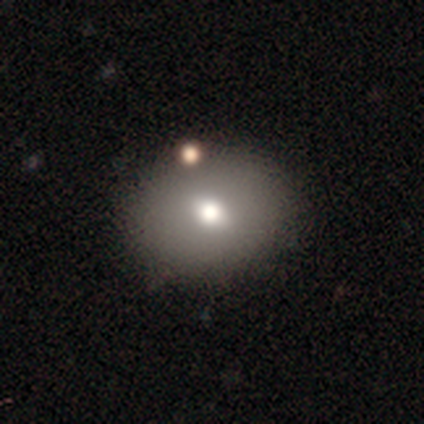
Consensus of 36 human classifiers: A smooth galaxy with no disk features (78%) that is round (61%). Merging: none (73%).